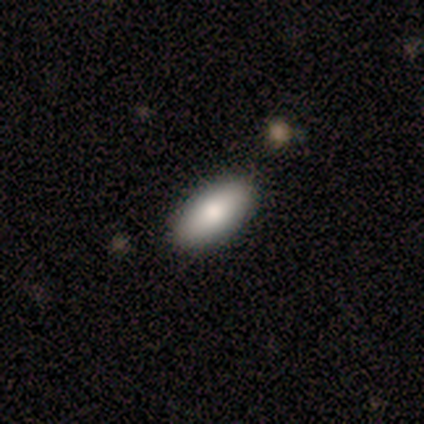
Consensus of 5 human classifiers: Morphology: type=smooth (80%); roundness=in between (100%); merging=none (100%).